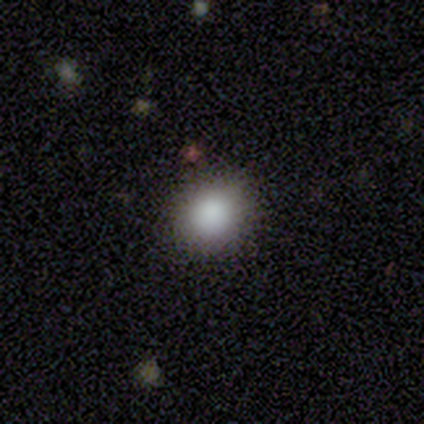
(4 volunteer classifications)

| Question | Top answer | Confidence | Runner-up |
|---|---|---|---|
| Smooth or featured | smooth | 75% | featured or disk (25%) |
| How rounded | round | 100% | — |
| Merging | none | 100% | — |